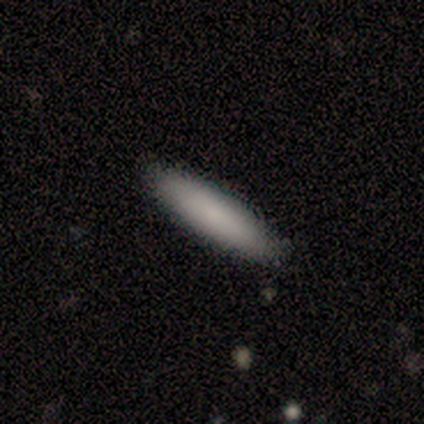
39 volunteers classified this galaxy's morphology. smooth_or_featured: smooth (p=0.85) [alt: featured or disk p=0.10]
how_rounded: cigar-shaped (p=0.85) [alt: in between p=0.12]
merging: none (p=0.89) [alt: minor disturbance p=0.11]